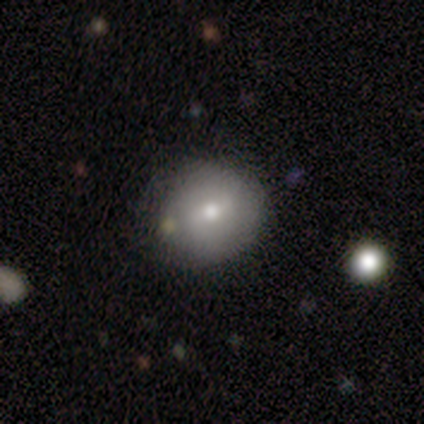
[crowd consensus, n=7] smooth_or_featured: smooth (p=0.57) [alt: featured or disk p=0.29]
how_rounded: round (p=1.00)
merging: none (p=0.83) [alt: minor disturbance p=0.17]